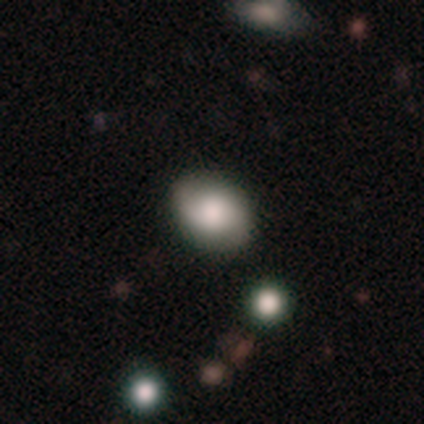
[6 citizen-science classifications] This is likely a smooth galaxy (67%). How rounded: clearly in between (100%). Merging: clearly none (100%).